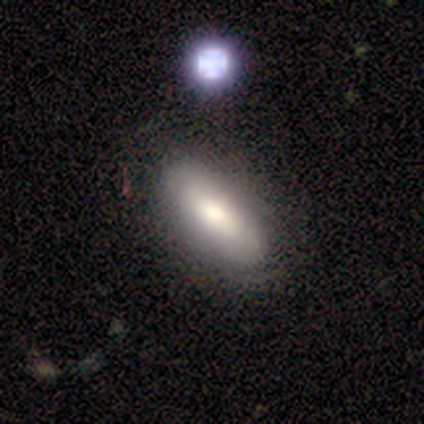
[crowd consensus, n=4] Volunteers were most divided on "merging" (2-way tie): none: 50%, minor disturbance: 50%, major disturbance: 0%, merger: 0%. More confident: smooth or featured — smooth (75%); how rounded — in between (67%).